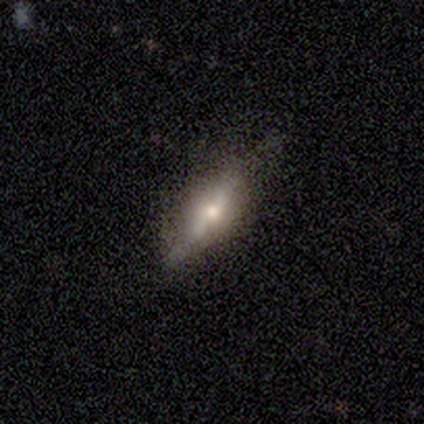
A featured or disk galaxy (69%) viewed edge-on (96%) with a rounded central bulge (85%). Merging: none (74%).